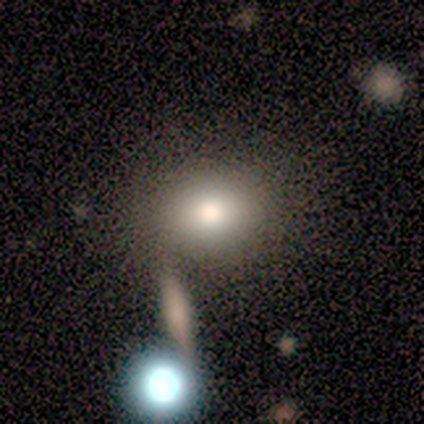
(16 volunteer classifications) smooth-or-featured: smooth: 62% | featured or disk: 25% | star or artifact: 12%
  how-rounded: round: 70% | in between: 30% | cigar-shaped: 0%
  merging: none: 64% | minor disturbance: 14% | merger: 14% | major disturbance: 7%